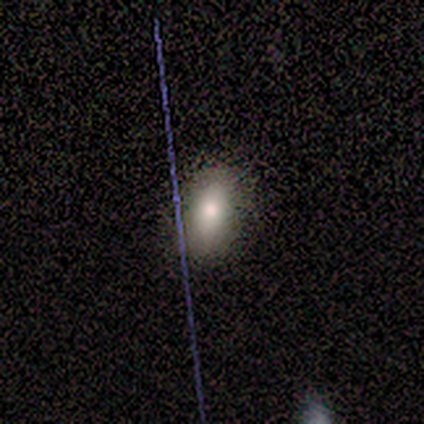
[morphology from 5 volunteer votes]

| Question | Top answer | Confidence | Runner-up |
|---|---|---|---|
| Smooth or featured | smooth | 80% | featured or disk (20%) |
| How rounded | in between | 100% | — |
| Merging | none | 80% | minor disturbance (20%) |